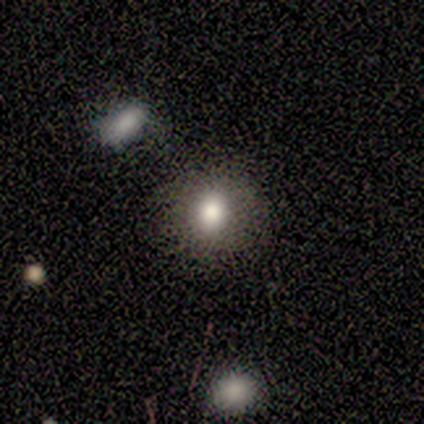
smooth_or_featured: smooth (p=0.70) [alt: star or artifact p=0.30]
how_rounded: round (p=1.00)
merging: none (p=0.71) [alt: minor disturbance p=0.14]